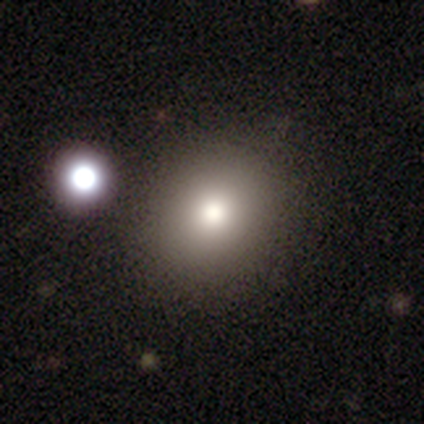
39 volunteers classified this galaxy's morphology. smooth_or_featured: smooth (p=0.67) [alt: featured or disk p=0.18]
how_rounded: round (p=0.69) [alt: in between p=0.31]
merging: none (p=0.97) [alt: minor disturbance p=0.03]